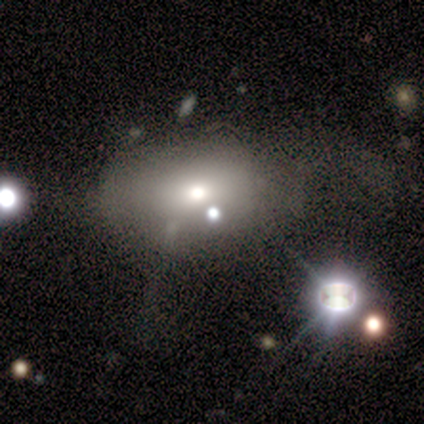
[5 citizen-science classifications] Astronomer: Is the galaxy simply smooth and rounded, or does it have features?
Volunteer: smooth — 60%.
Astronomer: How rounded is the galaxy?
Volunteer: in between — 67%.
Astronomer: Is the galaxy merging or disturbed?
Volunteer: none — 100%.